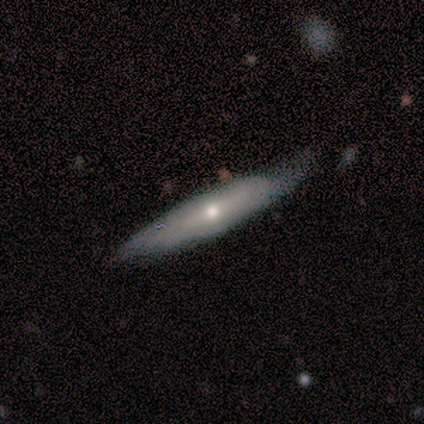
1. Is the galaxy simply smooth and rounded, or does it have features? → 60% smooth, 40% featured or disk, 0% star or artifact.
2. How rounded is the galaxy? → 100% cigar-shaped, 0% round, 0% in between.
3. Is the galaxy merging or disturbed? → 80% none, 20% minor disturbance, 0% major disturbance, 0% merger.